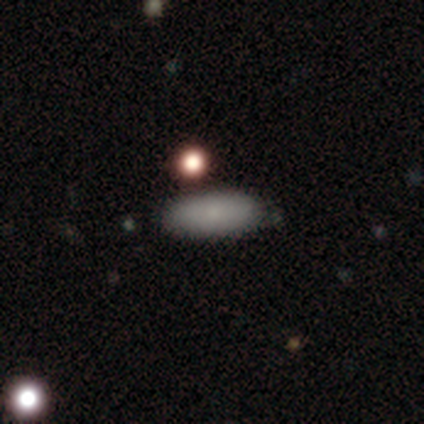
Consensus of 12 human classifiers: Smooth or featured? smooth (83%)
How rounded? in between (70%)
Merging? none (80%)